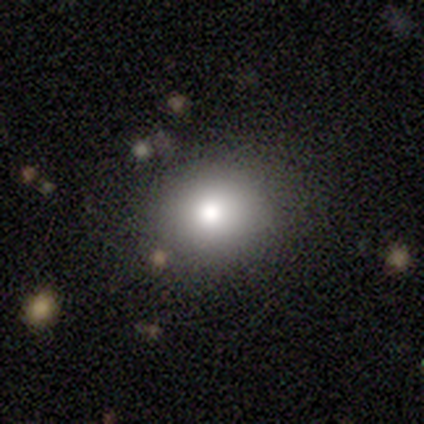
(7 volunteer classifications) smooth 86%, star or artifact 14%, featured or disk 0%. Down the decision tree: how rounded — round (67%); merging — none (100%).